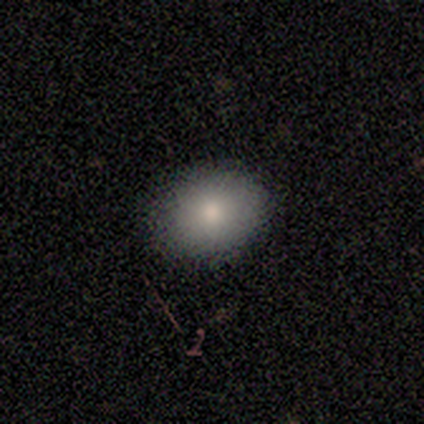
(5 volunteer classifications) Volunteers were most divided on "how rounded" (2-way tie): round: 50%, in between: 50%, cigar-shaped: 0%. More confident: merging — none (100%); smooth or featured — smooth (80%).